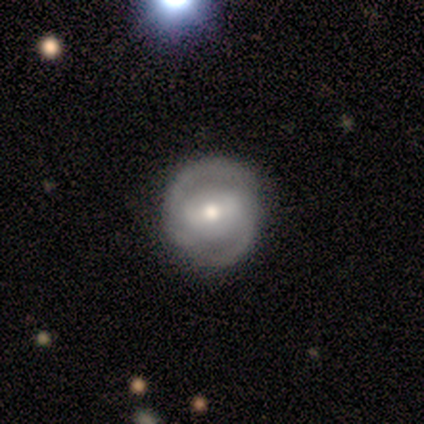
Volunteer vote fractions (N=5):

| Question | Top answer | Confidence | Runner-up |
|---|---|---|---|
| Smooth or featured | featured or disk | 60% | smooth (40%) |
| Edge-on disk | no | 100% | — |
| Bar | weak | 67% | no (33%) |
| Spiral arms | yes | 100% | — |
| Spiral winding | tight | 67% | loose (33%) |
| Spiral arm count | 2 | 100% | — |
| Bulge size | moderate | 67% | small (33%) |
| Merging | none | 100% | — |